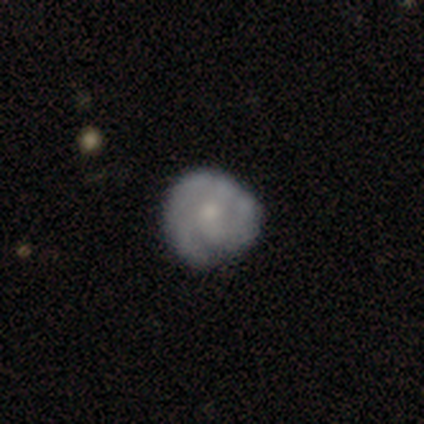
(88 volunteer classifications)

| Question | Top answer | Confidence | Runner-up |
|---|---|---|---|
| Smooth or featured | featured or disk | 60% | smooth (30%) |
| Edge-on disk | no | 100% | — |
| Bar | no | 83% | weak (17%) |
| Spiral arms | yes | 83% | no (17%) |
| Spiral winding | tight | 61% | medium (30%) |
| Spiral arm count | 3 | 41% | can't tell (25%) |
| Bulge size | small | 62% | moderate (30%) |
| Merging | none | 72% | minor disturbance (22%) |